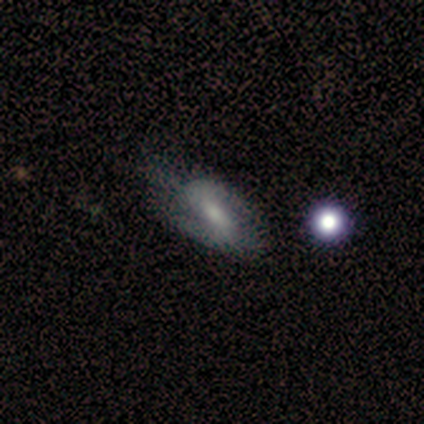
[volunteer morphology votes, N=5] smooth_or_featured: featured or disk (p=1.00)
disk_edge_on: no (p=0.80) [alt: yes p=0.20]
bar: weak (p=1.00)
has_spiral_arms: yes (p=1.00)
spiral_winding: tight (p=0.50) [tied with: medium p=0.50]
spiral_arm_count: 2 (p=1.00)
bulge_size: moderate (p=0.50) [tied with: small p=0.50]
merging: none (p=0.80) [alt: minor disturbance p=0.20]